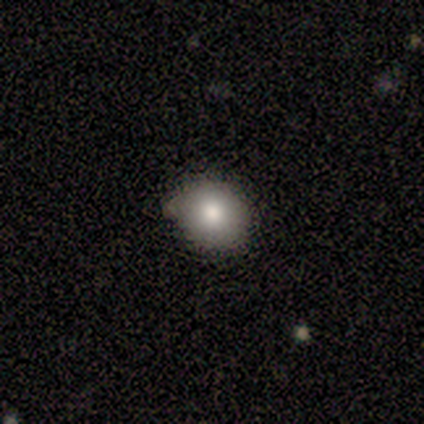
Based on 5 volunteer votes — A smooth galaxy with no disk features (100%) that is round (80%).

Vote fractions:
- Smooth or featured? smooth: 100% / featured or disk: 0% / star or artifact: 0%
- How rounded? round: 80% / in between: 20% / cigar-shaped: 0%
- Merging? none: 40% (tied) / minor disturbance: 40% (tied) / major disturbance: 20% / merger: 0%